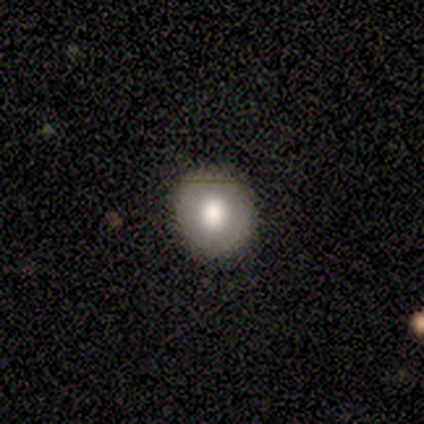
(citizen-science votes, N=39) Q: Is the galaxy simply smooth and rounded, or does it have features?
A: smooth — 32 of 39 (82%).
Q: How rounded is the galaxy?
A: round — 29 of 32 (91%).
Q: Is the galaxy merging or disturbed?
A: none — 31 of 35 (89%).